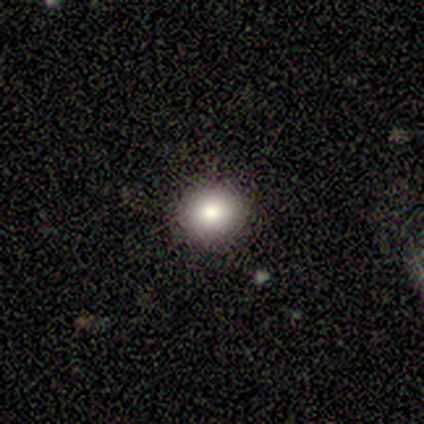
This appears to be a smooth galaxy with no disk features (100%) that is round (80%). Merging: none (80%).